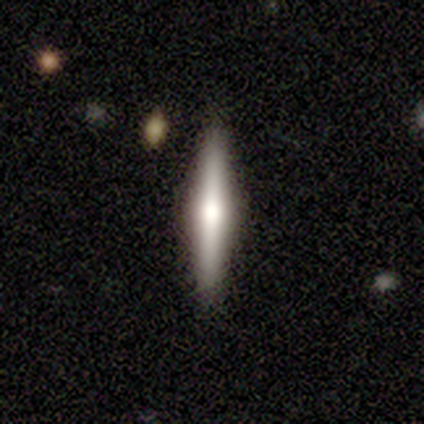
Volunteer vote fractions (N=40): A featured or disk galaxy (68%) viewed edge-on (100%) with a rounded central bulge (85%). Merging: none (97%).